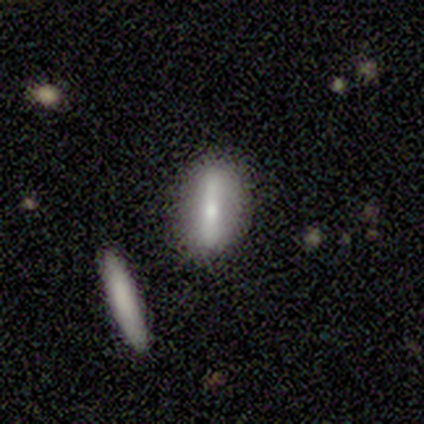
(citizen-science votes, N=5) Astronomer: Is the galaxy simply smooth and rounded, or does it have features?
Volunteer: featured or disk — 60%.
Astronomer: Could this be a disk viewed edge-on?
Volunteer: no — 67%.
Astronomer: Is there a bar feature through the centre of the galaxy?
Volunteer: strong — 100%.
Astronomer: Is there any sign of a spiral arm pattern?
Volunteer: yes — 50%, tied with no at 50%.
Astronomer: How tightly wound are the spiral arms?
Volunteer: tight — 100%.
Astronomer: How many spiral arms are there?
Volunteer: can't tell — 100%.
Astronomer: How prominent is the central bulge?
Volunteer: moderate — 100%.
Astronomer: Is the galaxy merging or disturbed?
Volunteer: none — 75%.